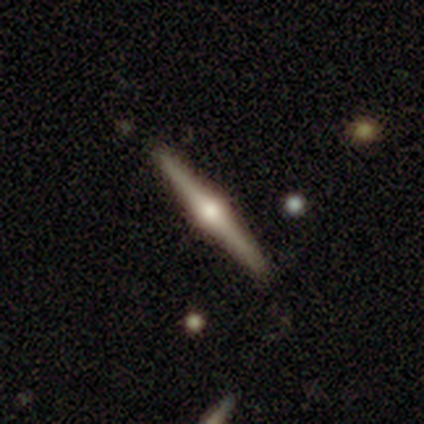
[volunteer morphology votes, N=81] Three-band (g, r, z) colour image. It shows a featured or disk galaxy (83%) viewed edge-on (100%) with a rounded central bulge (100%). Merging: none (49%).